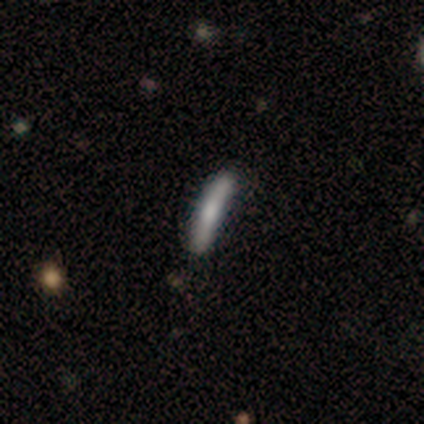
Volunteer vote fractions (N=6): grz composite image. It shows a smooth galaxy with no disk features (50%, tied with featured or disk) that is cigar-shaped (100%). Merging: none (67%).